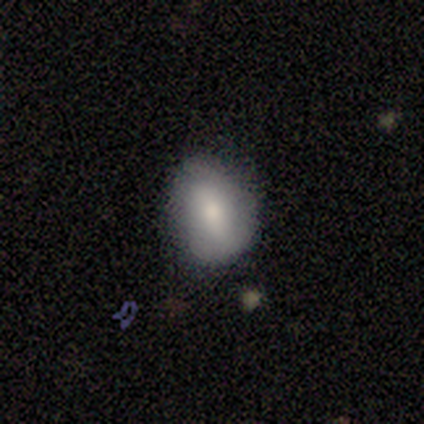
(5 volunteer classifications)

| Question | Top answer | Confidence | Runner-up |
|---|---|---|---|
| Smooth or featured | smooth | 80% | featured or disk (20%) |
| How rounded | in between | 75% | round (25%) |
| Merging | none | 80% | minor disturbance (20%) |